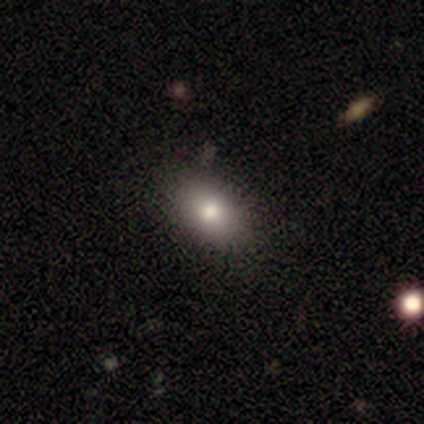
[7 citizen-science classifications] smooth-or-featured: smooth: 100% | featured or disk: 0% | star or artifact: 0%
  how-rounded: in between: 100% | round: 0% | cigar-shaped: 0%
  merging: none: 86% | major disturbance: 14% | minor disturbance: 0% | merger: 0%